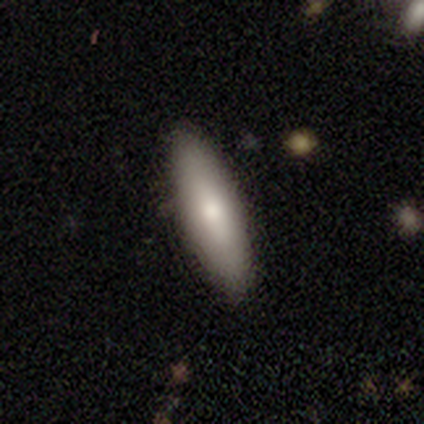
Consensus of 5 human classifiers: Smooth or featured: smooth — 100%
How rounded: cigar-shaped — 80% (in between — 20%)
Merging: none — 80% (minor disturbance — 20%)